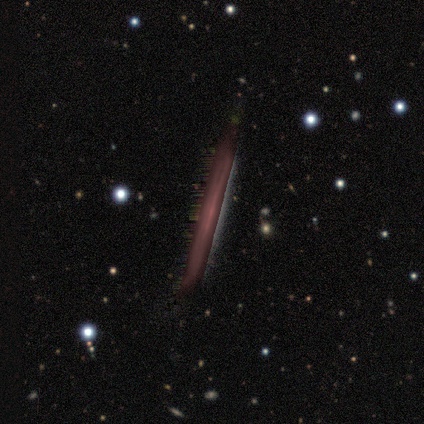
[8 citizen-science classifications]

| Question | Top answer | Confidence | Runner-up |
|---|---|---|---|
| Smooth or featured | star or artifact | 75% | featured or disk (25%) |